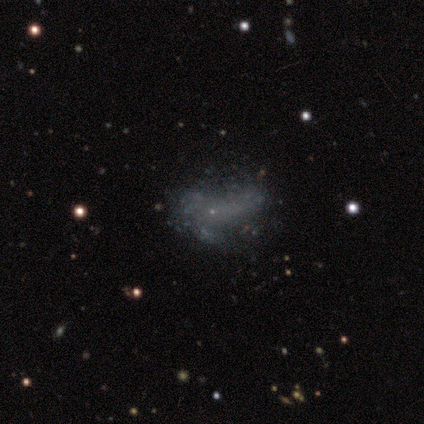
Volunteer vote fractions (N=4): This is likely a featured or disk galaxy (75%). It is clearly not viewed edge-on (100%). Bar: clearly no (100%). Spiral arm pattern: clearly no (100%). Central bulge: clearly small (100%). Merging: possibly major disturbance (50%).